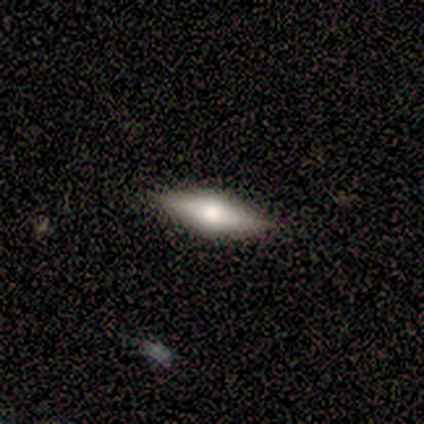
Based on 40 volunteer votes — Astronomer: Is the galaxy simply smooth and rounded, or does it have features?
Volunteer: featured or disk — 62%.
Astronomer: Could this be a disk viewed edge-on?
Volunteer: yes — 96%.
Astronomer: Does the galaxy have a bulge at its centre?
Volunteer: rounded — 83%.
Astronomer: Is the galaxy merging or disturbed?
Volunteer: none — 90%.